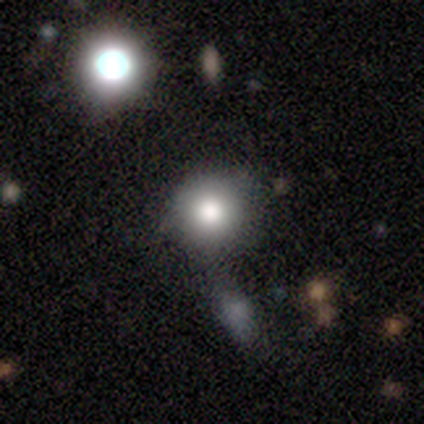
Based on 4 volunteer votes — Smooth or featured? smooth (100%)
How rounded? round (100%)
Merging? none (100%)